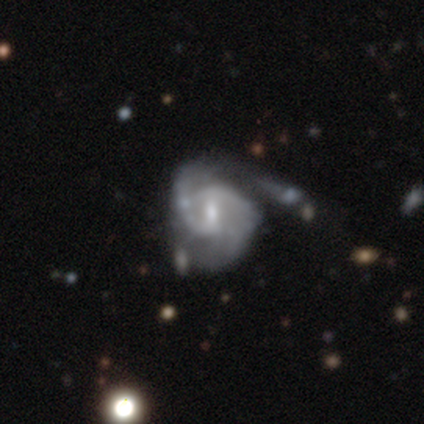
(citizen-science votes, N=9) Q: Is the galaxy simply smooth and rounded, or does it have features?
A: featured or disk — 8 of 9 (89%).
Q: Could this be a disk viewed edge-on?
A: no — 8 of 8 (100%).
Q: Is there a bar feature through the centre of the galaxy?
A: weak — 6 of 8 (75%).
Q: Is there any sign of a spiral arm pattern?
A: yes — 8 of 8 (100%).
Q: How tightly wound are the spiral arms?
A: medium — 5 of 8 (62%).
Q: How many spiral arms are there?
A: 2 — 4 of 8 (50%, tied with can't tell).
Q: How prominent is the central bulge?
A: small — 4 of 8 (50%).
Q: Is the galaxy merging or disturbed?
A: major disturbance — 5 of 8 (62%).